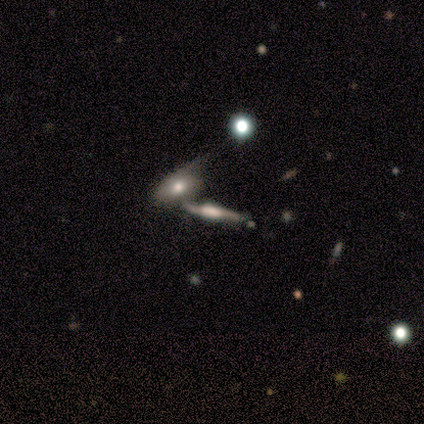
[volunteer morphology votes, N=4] Smooth or featured?
  - featured or disk: 75% *
  - smooth: 25%
  - star or artifact: 0%
Edge-on disk?
  - yes: 67% *
  - no: 33%
Edge-on bulge?
  - boxy: 100% *
  - none: 0%
  - rounded: 0%
Merging?
  - merger: 50% *
  - none: 25%
  - minor disturbance: 25%
  - major disturbance: 0%